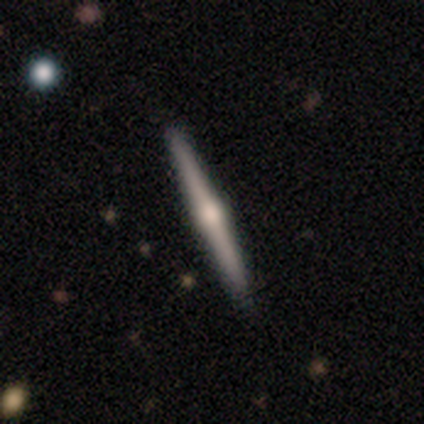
Q: Smooth or featured?
A: featured or disk (70%); runner-up: smooth (21%)
Q: Edge-on disk?
A: yes (100%)
Q: Edge-on bulge?
A: rounded (94%); runner-up: boxy (6%)
Q: Merging?
A: none (93%); runner-up: minor disturbance (7%)